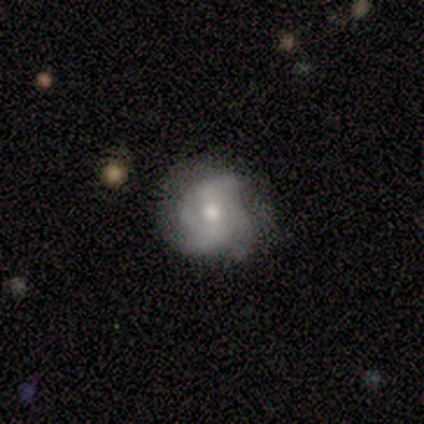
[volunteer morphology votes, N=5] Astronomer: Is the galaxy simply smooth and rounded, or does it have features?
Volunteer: featured or disk — 100%.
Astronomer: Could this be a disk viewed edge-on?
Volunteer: no — 100%.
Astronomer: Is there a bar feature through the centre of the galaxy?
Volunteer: weak — 40%, tied with no at 40%.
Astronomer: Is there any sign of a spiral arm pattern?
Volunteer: yes — 100%.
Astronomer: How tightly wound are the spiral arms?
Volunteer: medium — 40%, tied with loose at 40%.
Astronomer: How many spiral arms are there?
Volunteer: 2 — 40%, tied with 4 at 40%.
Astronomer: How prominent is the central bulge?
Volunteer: moderate — 60%.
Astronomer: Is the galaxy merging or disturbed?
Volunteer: none — 100%.